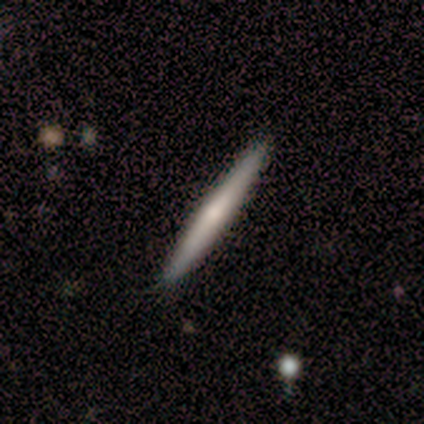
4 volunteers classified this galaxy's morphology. This is likely a featured or disk galaxy (75%). It is clearly viewed edge-on (100%). Edge-on bulge: likely none (67%). Merging: clearly none (100%).